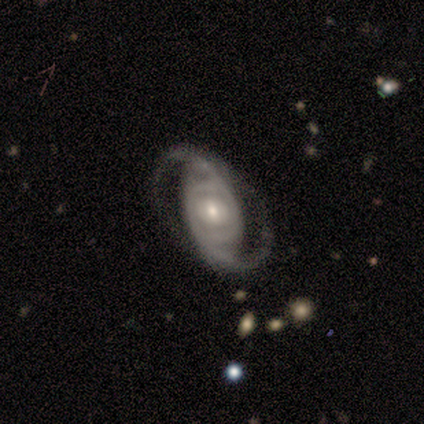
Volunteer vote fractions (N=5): Smooth or featured? 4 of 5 (80%) said featured or disk. Edge-on disk? 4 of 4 (100%) said no. Bar? 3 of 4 (75%) said no. Spiral arms? 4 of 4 (100%) said yes. Spiral winding? 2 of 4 (50%) said loose. Spiral arm count? 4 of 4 (100%) said 2. Bulge size? 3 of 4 (75%) said moderate. Merging? 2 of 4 (50%) said none.